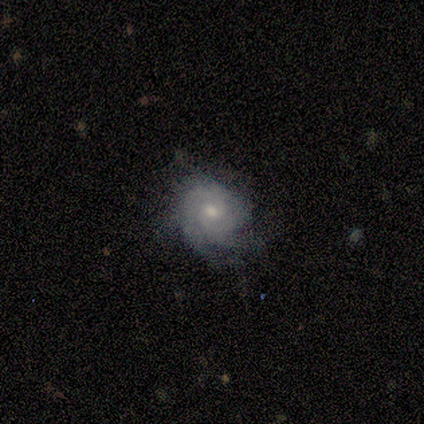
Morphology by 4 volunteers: Overall: featured or disk (50%; smooth 25%). Edge-on disk: no (100%). Bar: weak (50%, tied with no). Spiral arms: yes (100%). Spiral arm count: can't tell (100%). Spiral winding: tight (50%, tied with loose). Bulge size: moderate (100%). Merging: none (67%; minor disturbance 33%).